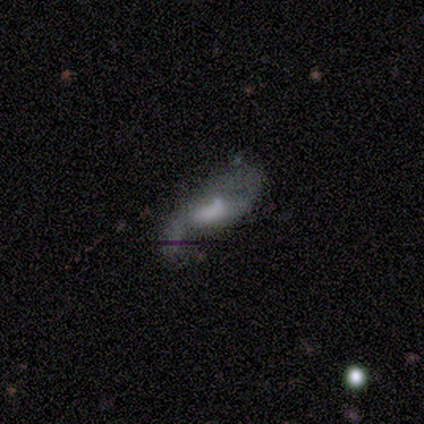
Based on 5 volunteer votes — A smooth galaxy with no disk features (60%) that is in between round and cigar-shaped (100%).

Vote fractions:
- Smooth or featured? smooth: 60% / featured or disk: 40% / star or artifact: 0%
- How rounded? in between: 100% / round: 0% / cigar-shaped: 0%
- Merging? major disturbance: 40% / none: 20% / minor disturbance: 20% / merger: 20%